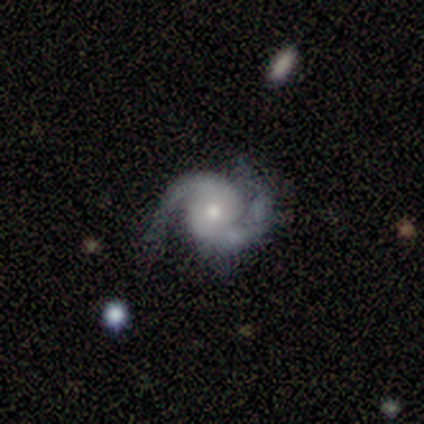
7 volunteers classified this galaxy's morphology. A featured or disk galaxy (86%) with a weak bar (50%, tied with no), 2 (100%) medium (67%) spiral arms (100%) and a moderate central bulge (67%).

Vote fractions:
- Smooth or featured? featured or disk: 86% / smooth: 14% / star or artifact: 0%
- Edge-on disk? no: 100% / yes: 0%
- Bar? weak: 50% (tied) / no: 50% (tied) / strong: 0%
- Spiral arms? yes: 100% / no: 0%
- Spiral winding? medium: 67% / tight: 33% / loose: 0%
- Spiral arm count? 2: 100% / 1: 0% / 3: 0% / 4: 0% / more than 4: 0% / can't tell: 0%
- Bulge size? moderate: 67% / small: 33% / dominant: 0% / large: 0% / none: 0%
- Merging? none: 57% / minor disturbance: 29% / major disturbance: 14% / merger: 0%